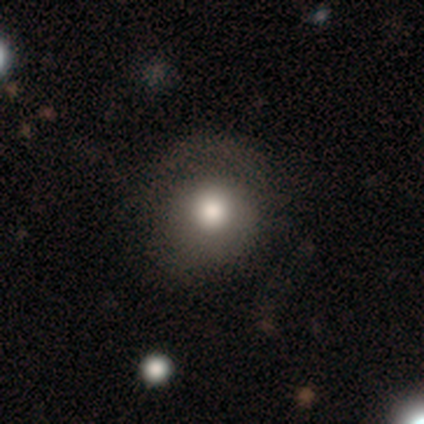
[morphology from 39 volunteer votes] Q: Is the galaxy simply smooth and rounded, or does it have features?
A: smooth — 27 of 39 (69%).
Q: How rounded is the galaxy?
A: round — 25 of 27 (93%).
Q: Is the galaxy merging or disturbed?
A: none — 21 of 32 (66%).